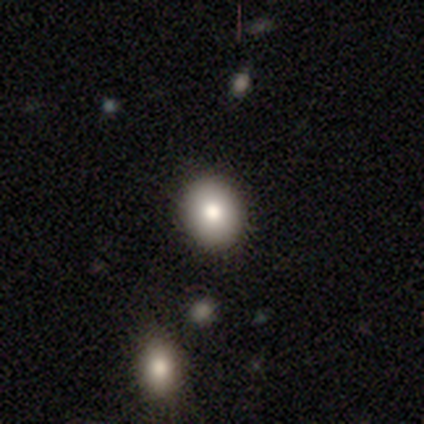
Overall: smooth (78%). How rounded: round (71%). Merging: none (100%).